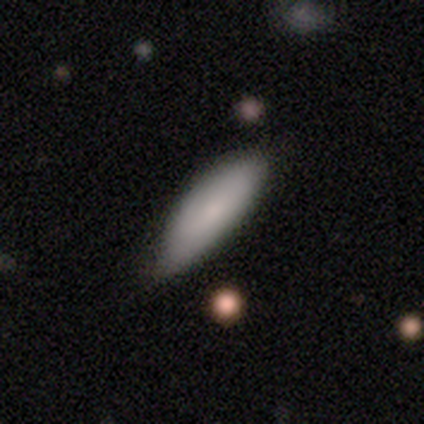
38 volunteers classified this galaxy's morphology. type=smooth (74%); roundness=in between (89%); merging=none (40%).